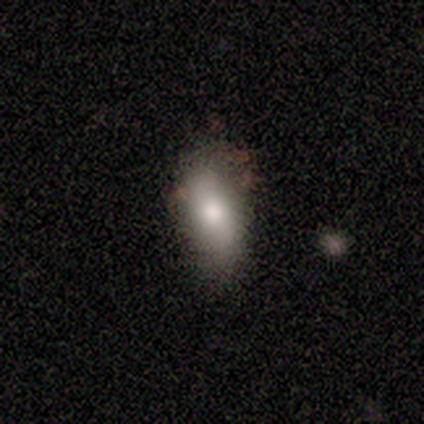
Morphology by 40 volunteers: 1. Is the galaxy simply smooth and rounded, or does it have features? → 82% smooth, 10% featured or disk, 8% star or artifact.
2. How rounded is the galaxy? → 88% in between, 6% round, 6% cigar-shaped.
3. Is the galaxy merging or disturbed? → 65% none, 35% minor disturbance, 0% major disturbance, 0% merger.